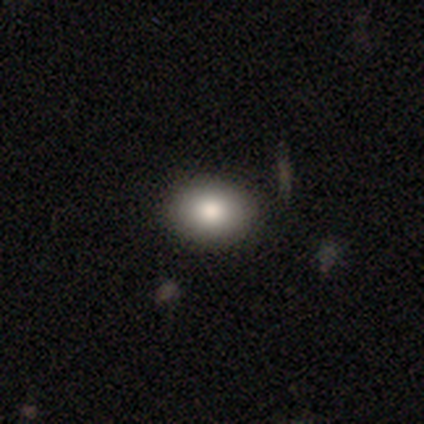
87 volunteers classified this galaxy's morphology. smooth 78%, featured or disk 14%, star or artifact 8%. Down the decision tree: how rounded — in between (59%); merging — none (89%).